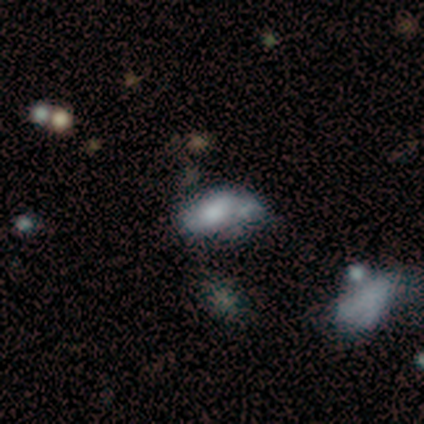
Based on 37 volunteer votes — This is possibly a smooth galaxy (59%). How rounded: clearly in between (86%). Merging: marginally none (34%, tied with minor disturbance).